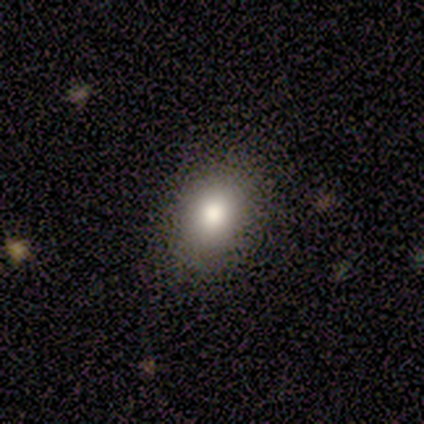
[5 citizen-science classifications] smooth-or-featured: smooth: 100% | featured or disk: 0% | star or artifact: 0%
  how-rounded: round: 80% | in between: 20% | cigar-shaped: 0%
  merging: none: 100% | minor disturbance: 0% | major disturbance: 0% | merger: 0%